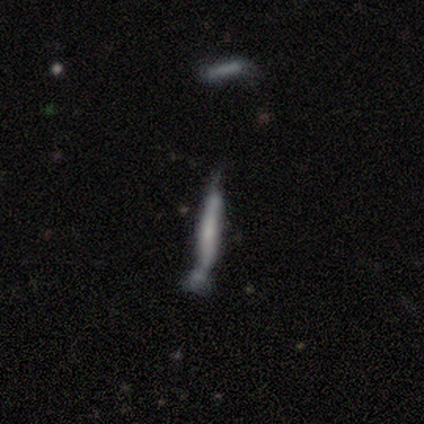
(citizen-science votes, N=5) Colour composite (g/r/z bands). It shows a smooth galaxy with no disk features (60%) that is cigar-shaped (67%). Merging: major disturbance (40%, tied with merger).